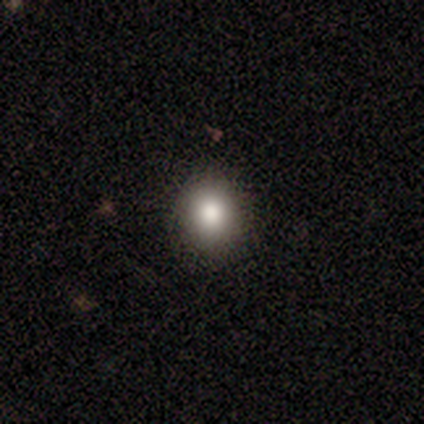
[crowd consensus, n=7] This is likely a smooth galaxy (71%). How rounded: likely round (60%). Merging: clearly none (100%).